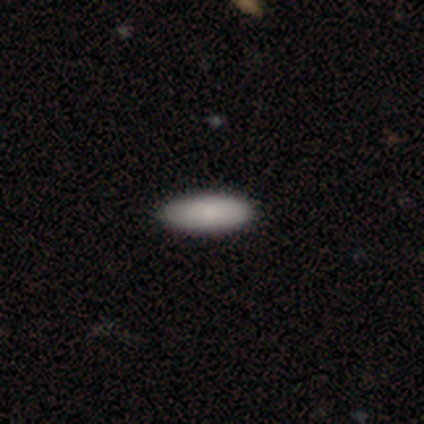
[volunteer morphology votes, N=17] Smooth or featured: smooth — 94% (star or artifact — 6%)
How rounded: in between — 81% (cigar-shaped — 19%)
Merging: none — 94% (minor disturbance — 6%)